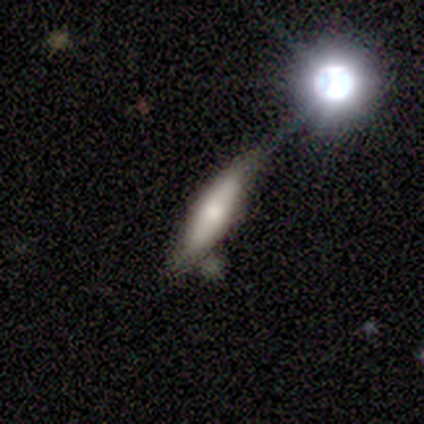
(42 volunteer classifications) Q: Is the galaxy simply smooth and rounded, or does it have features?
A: smooth — 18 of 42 (43%, tied with featured or disk).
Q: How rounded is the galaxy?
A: cigar-shaped — 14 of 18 (78%).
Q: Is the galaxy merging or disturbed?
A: minor disturbance — 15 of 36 (42%).